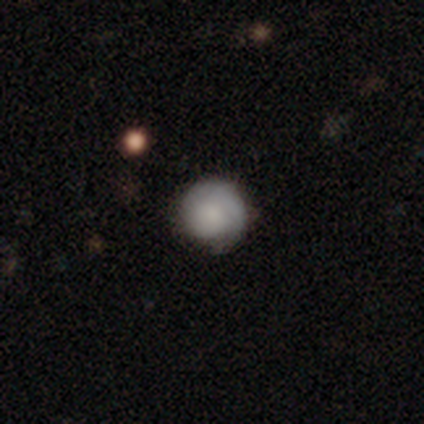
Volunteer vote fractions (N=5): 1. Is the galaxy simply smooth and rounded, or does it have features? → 60% smooth, 20% featured or disk, 20% star or artifact.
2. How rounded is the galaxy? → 100% round, 0% in between, 0% cigar-shaped.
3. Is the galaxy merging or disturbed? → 75% none, 25% minor disturbance, 0% major disturbance, 0% merger.